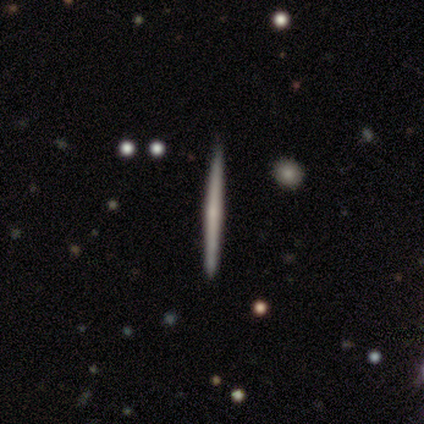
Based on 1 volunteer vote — A featured or disk galaxy (100%) viewed edge-on (100%) with a rounded central bulge (100%). Merging: none (100%).